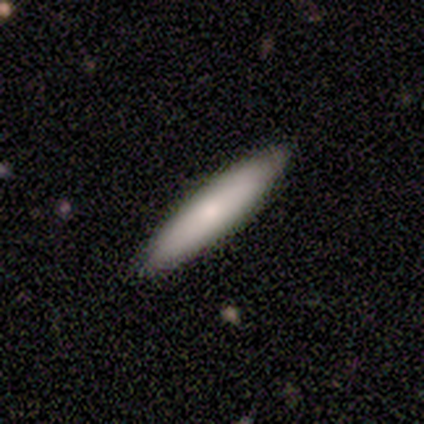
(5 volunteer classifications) smooth-or-featured: smooth: 100% | featured or disk: 0% | star or artifact: 0%
  how-rounded: cigar-shaped: 80% | in between: 20% | round: 0%
  merging: none: 60% | minor disturbance: 40% | major disturbance: 0% | merger: 0%